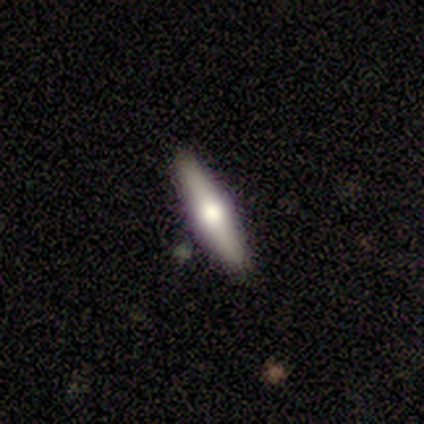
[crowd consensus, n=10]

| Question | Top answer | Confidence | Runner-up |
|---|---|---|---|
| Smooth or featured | featured or disk | 70% | smooth (30%) |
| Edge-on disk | yes | 86% | no (14%) |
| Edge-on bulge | rounded | 100% | — |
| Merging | none | 90% | merger (10%) |